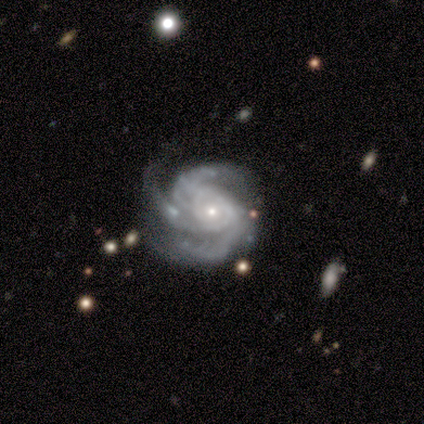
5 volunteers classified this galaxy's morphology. Overall: featured or disk (100%). Edge-on disk: no (100%). Bar: no (80%). Spiral arms: yes (100%). Spiral arm count: 3 (60%; 2 20%). Spiral winding: tight (80%). Bulge size: small (80%). Merging: none (60%; minor disturbance 20%).